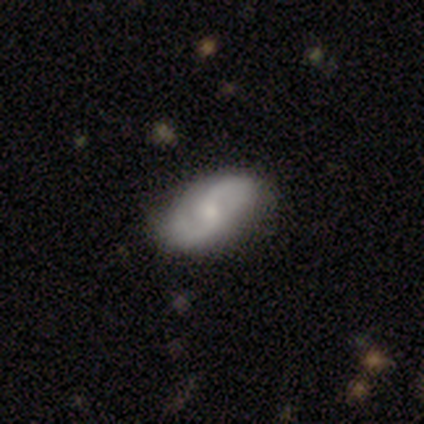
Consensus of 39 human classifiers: A featured or disk galaxy (82%) with no bar (69%), 2 (91%) medium (56%) spiral arms (100%) and a small central bulge (50%). Merging: none (54%).